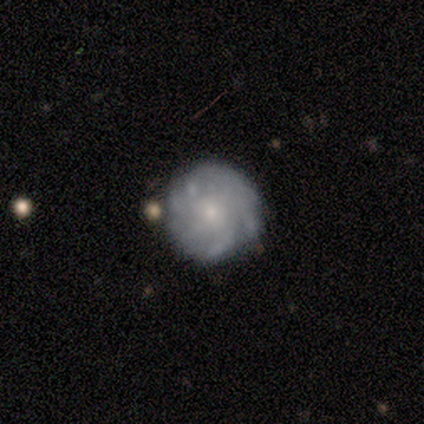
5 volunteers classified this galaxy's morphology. smooth-or-featured: featured or disk: 100% | smooth: 0% | star or artifact: 0%
  disk-edge-on: no: 100% | yes: 0%
    bar: no: 100% | strong: 0% | weak: 0%
    has-spiral-arms: yes: 100% | no: 0%
      spiral-winding: tight: 40% (tied) | medium: 40% (tied) | loose: 20%
      spiral-arm-count: can't tell: 80% | 3: 20% | 1: 0% | 2: 0% | 4: 0% | more than 4: 0%
    bulge-size: small: 80% | moderate: 20% | dominant: 0% | large: 0% | none: 0%
  merging: none: 100% | minor disturbance: 0% | major disturbance: 0% | merger: 0%